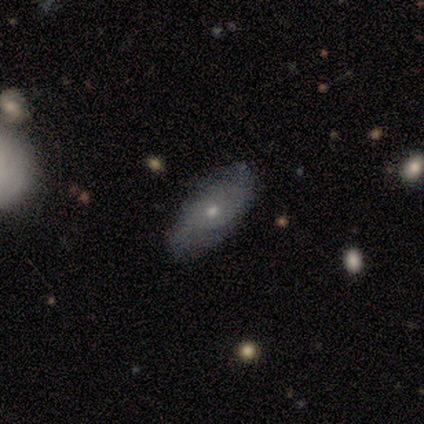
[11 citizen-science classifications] Morphology: type=smooth (64%); roundness=in between (100%); merging=none (91%).